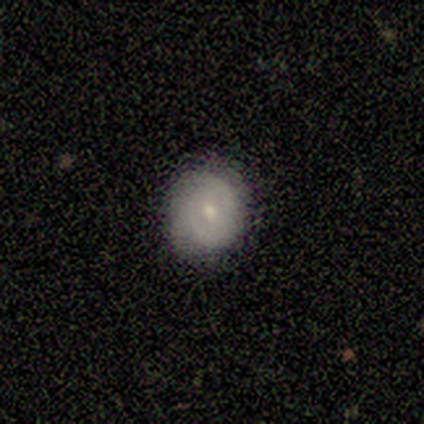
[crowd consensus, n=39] Smooth or featured? 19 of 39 (49%) said featured or disk. Edge-on disk? 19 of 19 (100%) said no. Bar? 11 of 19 (58%) said no. Spiral arms? 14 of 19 (74%) said yes. Spiral winding? 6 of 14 (43%, tied with medium) said tight. Spiral arm count? 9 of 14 (64%) said 2. Bulge size? 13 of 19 (68%) said small. Merging? 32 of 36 (89%) said none.